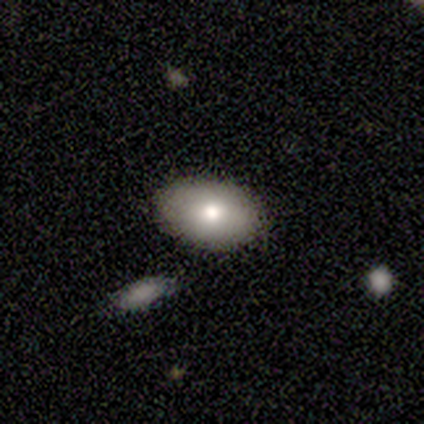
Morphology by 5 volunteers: Volunteers were most divided on "smooth or featured": featured or disk: 60%, smooth: 40%, star or artifact: 0%. More confident: edge-on disk — no (100%); bar — no (100%); spiral arms — no (100%); merging — none (100%); bulge size — moderate (67%).